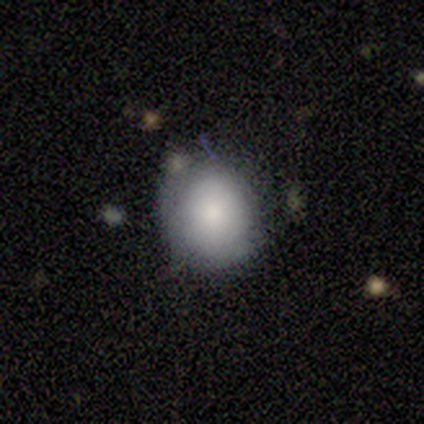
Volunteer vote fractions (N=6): Smooth or featured? smooth (100%)
How rounded? round (83%)
Merging? none (50%, tied with minor disturbance)